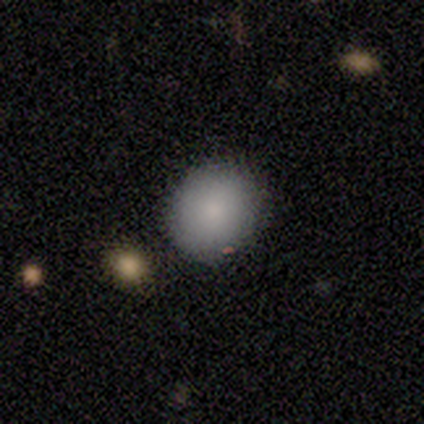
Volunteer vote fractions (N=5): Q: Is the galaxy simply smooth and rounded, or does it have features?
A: smooth — 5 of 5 (100%).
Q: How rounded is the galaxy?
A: round — 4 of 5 (80%).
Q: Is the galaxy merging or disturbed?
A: none — 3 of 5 (60%).